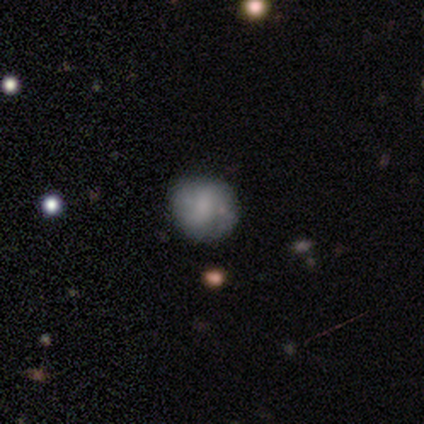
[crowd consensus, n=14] A smooth galaxy with no disk features (57%) that is round (88%).

Vote fractions:
- Smooth or featured? smooth: 57% / featured or disk: 43% / star or artifact: 0%
- How rounded? round: 88% / in between: 12% / cigar-shaped: 0%
- Merging? none: 93% / minor disturbance: 7% / major disturbance: 0% / merger: 0%